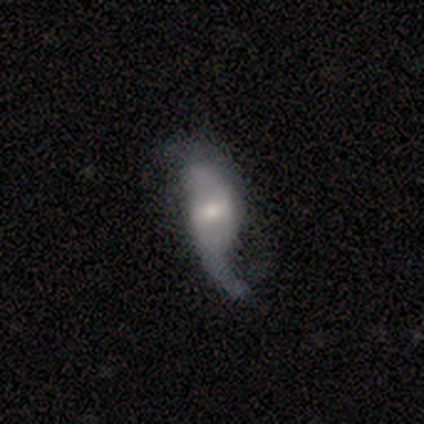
Overall: featured or disk (100%). Edge-on disk: no (100%). Bar: weak (60%; strong 20%). Spiral arms: yes (60%; no 40%). Spiral arm count: 2 (100%). Spiral winding: loose (100%). Bulge size: moderate (80%). Merging: minor disturbance (40%, tied with major disturbance).